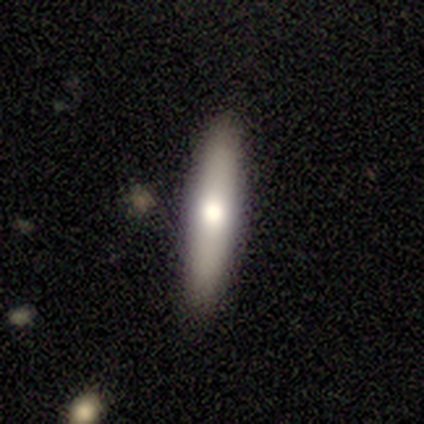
A smooth galaxy with no disk features (68%) that is cigar-shaped (92%).

Vote fractions:
- Smooth or featured? smooth: 68% / featured or disk: 29% / star or artifact: 3%
- How rounded? cigar-shaped: 92% / in between: 8% / round: 0%
- Merging? none: 92% / minor disturbance: 3% / major disturbance: 3% / merger: 3%